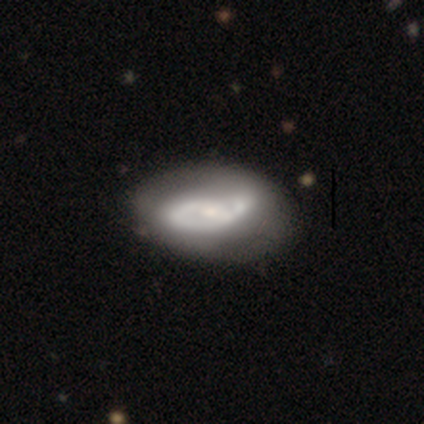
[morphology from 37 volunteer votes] This is clearly a featured or disk galaxy (81%). It is clearly not viewed edge-on (100%). Bar: marginally weak (43%, tied with no). Spiral arm pattern: likely yes (77%). Spiral arm count: possibly 2 (48%). Spiral winding: likely medium (61%). Central bulge: possibly small (47%). Merging: marginally none (36%).